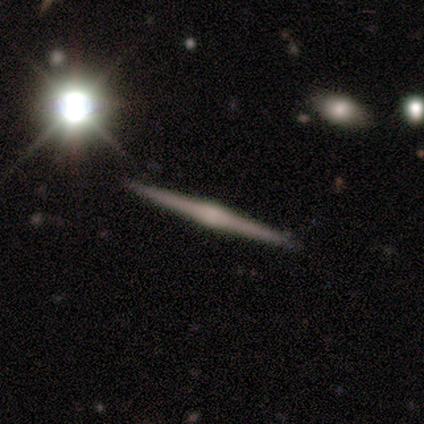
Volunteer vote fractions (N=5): Smooth or featured?
  - featured or disk: 80% *
  - smooth: 20%
  - star or artifact: 0%
Edge-on disk?
  - yes: 100% *
  - no: 0%
Edge-on bulge?
  - rounded: 75% *
  - none: 25%
  - boxy: 0%
Merging?
  - none: 100% *
  - minor disturbance: 0%
  - major disturbance: 0%
  - merger: 0%